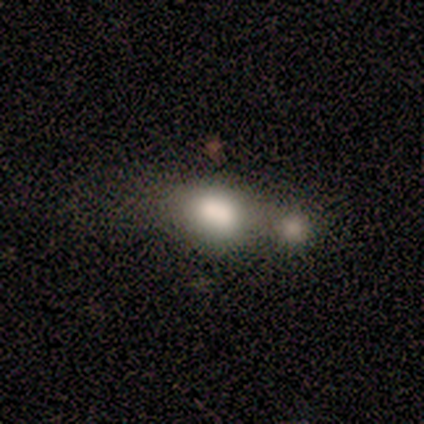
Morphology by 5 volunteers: type=smooth (60%); roundness=round (67%); merging=minor disturbance (50%, tied with merger).